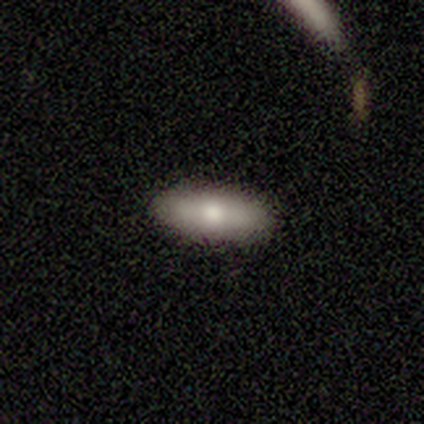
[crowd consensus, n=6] A smooth galaxy with no disk features (67%) that is in between round and cigar-shaped (50%, tied with cigar-shaped). Merging: none (83%).